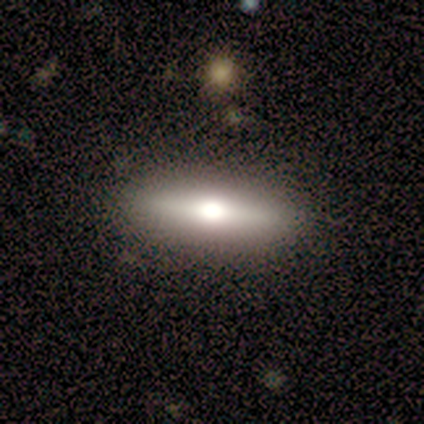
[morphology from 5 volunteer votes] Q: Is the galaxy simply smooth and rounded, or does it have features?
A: smooth — 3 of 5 (60%).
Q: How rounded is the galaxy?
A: in between — 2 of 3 (67%).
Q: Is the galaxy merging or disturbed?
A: none — 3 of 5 (60%).